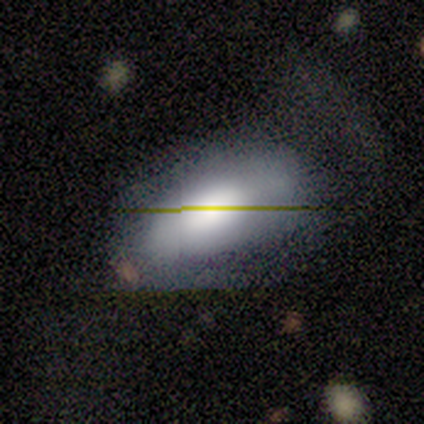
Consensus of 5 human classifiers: Smooth or featured: star or artifact — 60% (smooth — 20%)